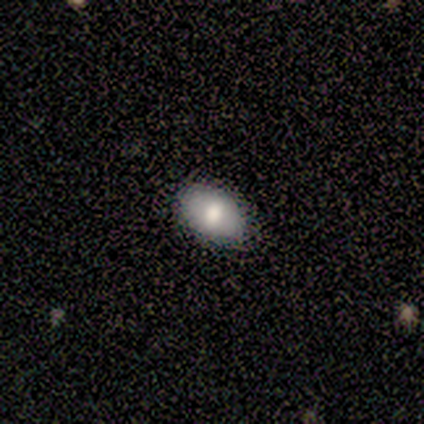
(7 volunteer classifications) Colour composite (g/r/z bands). It shows a smooth galaxy with no disk features (71%) that is in between round and cigar-shaped (80%). Merging: none (83%).